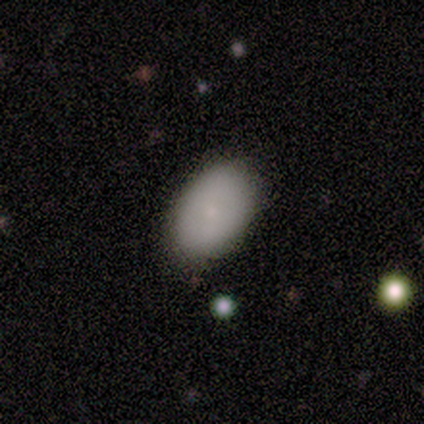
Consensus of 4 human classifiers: Smooth or featured? smooth (100%)
How rounded? in between (100%)
Merging? none (100%)